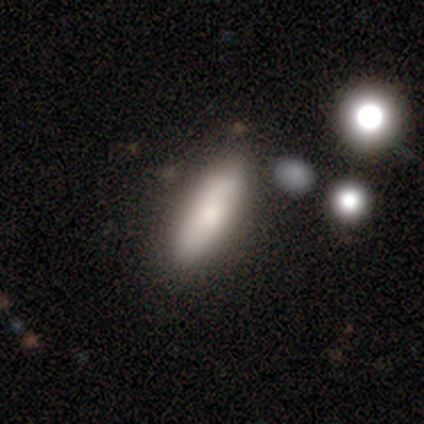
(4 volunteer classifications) Smooth or featured: smooth — 100%
How rounded: in between — 75% (cigar-shaped — 25%)
Merging: none — 75% (minor disturbance — 25%)